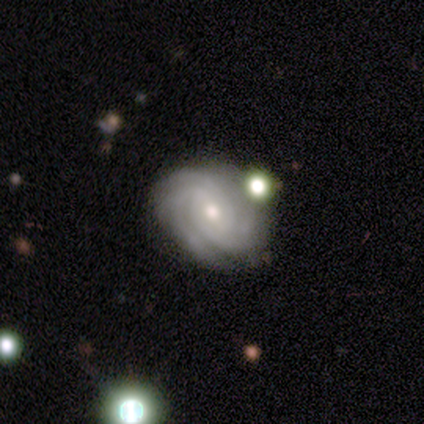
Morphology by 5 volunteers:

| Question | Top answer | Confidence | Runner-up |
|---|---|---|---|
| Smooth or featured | featured or disk | 100% | — |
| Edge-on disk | no | 100% | — |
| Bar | weak | 60% | no (40%) |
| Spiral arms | yes | 100% | — |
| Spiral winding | tight | 80% | medium (20%) |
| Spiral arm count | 2 | 40% | tied: 4 (40%) |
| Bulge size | small | 60% | large (20%) |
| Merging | none | 60% | major disturbance (20%) |